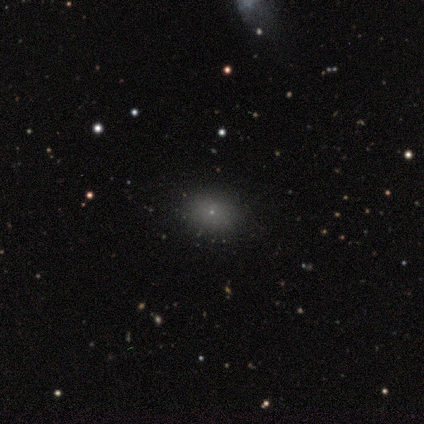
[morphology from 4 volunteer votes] type=smooth (75%); roundness=round (67%); merging=none (75%).